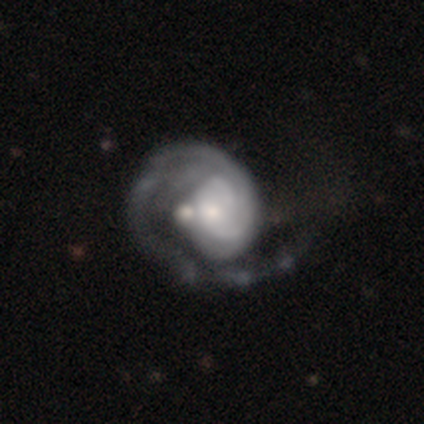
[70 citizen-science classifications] A featured or disk galaxy (84%) with no bar (90%), 1 (66%) tight (50%) spiral arms (95%) and a small central bulge (46%). Merging: major disturbance (49%).